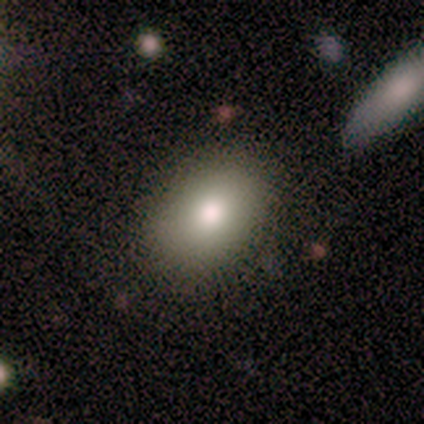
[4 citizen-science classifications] Q: Smooth or featured?
A: smooth (75%); runner-up: star or artifact (25%)
Q: How rounded?
A: in between (67%); runner-up: round (33%)
Q: Merging?
A: none (67%); runner-up: minor disturbance (33%)